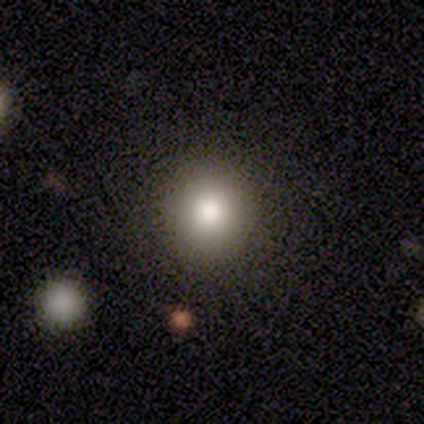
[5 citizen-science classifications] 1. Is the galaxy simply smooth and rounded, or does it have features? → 100% smooth, 0% featured or disk, 0% star or artifact.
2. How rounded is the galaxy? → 100% round, 0% in between, 0% cigar-shaped.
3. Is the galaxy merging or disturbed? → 100% none, 0% minor disturbance, 0% major disturbance, 0% merger.